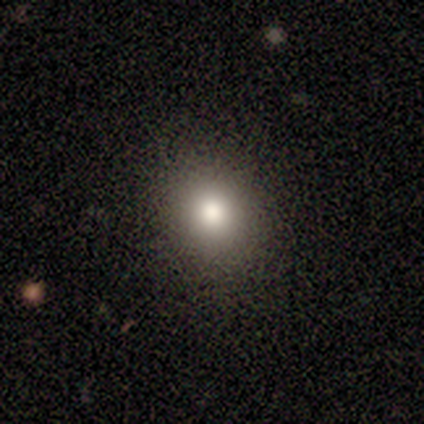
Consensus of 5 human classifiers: smooth-or-featured: smooth: 80% | star or artifact: 20% | featured or disk: 0%
  how-rounded: round: 100% | in between: 0% | cigar-shaped: 0%
  merging: none: 100% | minor disturbance: 0% | major disturbance: 0% | merger: 0%